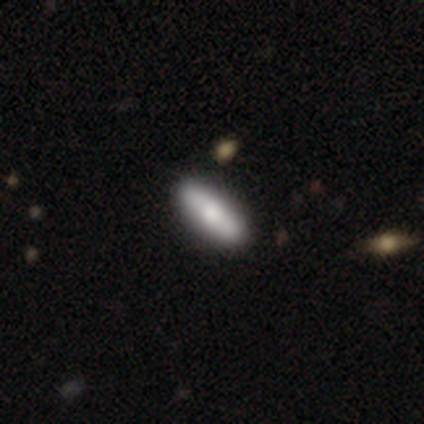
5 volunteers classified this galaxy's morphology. type=smooth (60%); roundness=cigar-shaped (100%); merging=none (100%).